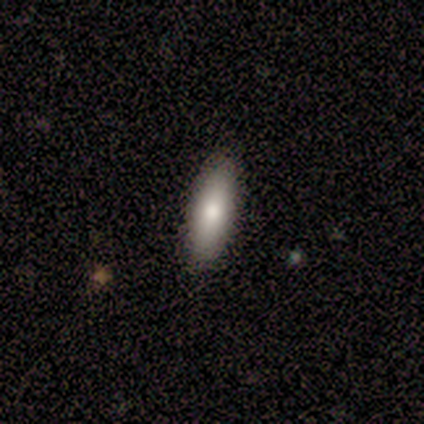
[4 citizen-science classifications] Q: Smooth or featured?
A: smooth (75%); runner-up: featured or disk (25%)
Q: How rounded?
A: in between (67%); runner-up: cigar-shaped (33%)
Q: Merging?
A: none (100%)